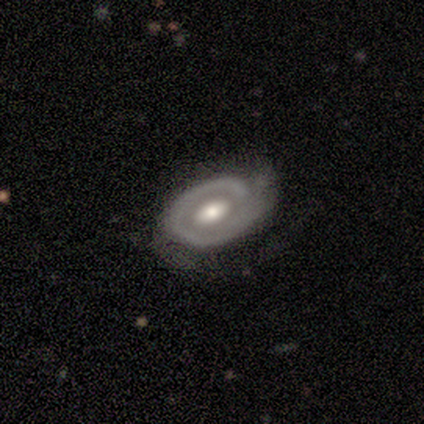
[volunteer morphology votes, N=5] A featured or disk galaxy (80%) with a weak bar (50%, tied with no), 2 (50%) tight (50%, tied with loose) spiral arms (100%) and a moderate central bulge (100%).

Vote fractions:
- Smooth or featured? featured or disk: 80% / smooth: 20% / star or artifact: 0%
- Edge-on disk? no: 100% / yes: 0%
- Bar? weak: 50% (tied) / no: 50% (tied) / strong: 0%
- Spiral arms? yes: 100% / no: 0%
- Spiral winding? tight: 50% (tied) / loose: 50% (tied) / medium: 0%
- Spiral arm count? 2: 50% / 1: 25% / can't tell: 25% / 3: 0% / 4: 0% / more than 4: 0%
- Bulge size? moderate: 100% / dominant: 0% / large: 0% / small: 0% / none: 0%
- Merging? none: 80% / minor disturbance: 20% / major disturbance: 0% / merger: 0%